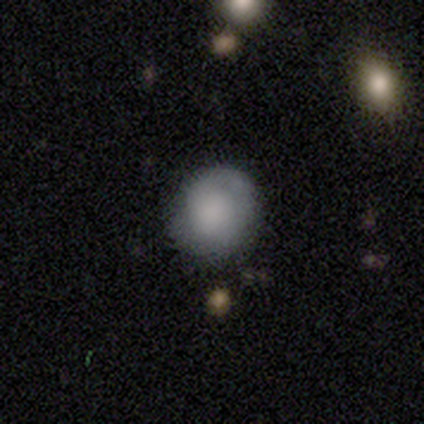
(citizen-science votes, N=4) This appears to be a smooth galaxy with no disk features (50%, tied with featured or disk) that is round (100%). Merging: none (100%).